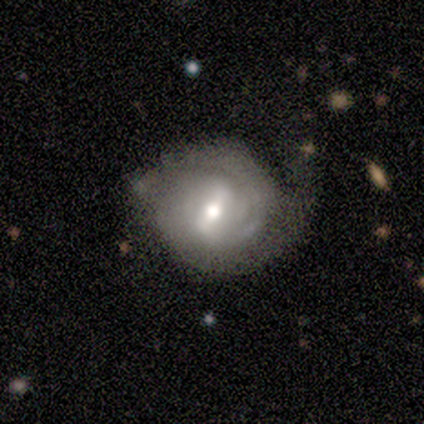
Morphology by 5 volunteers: Q: Smooth or featured?
A: featured or disk (80%); runner-up: smooth (20%)
Q: Edge-on disk?
A: no (100%)
Q: Bar?
A: strong (50%); runner-up: weak (25%)
Q: Spiral arms?
A: yes (75%); runner-up: no (25%)
Q: Spiral winding?
A: medium (67%); runner-up: tight (33%)
Q: Spiral arm count?
A: 2 (67%); runner-up: can't tell (33%)
Q: Bulge size?
A: moderate (75%); runner-up: small (25%)
Q: Merging?
A: none (60%); runner-up: minor disturbance (20%)